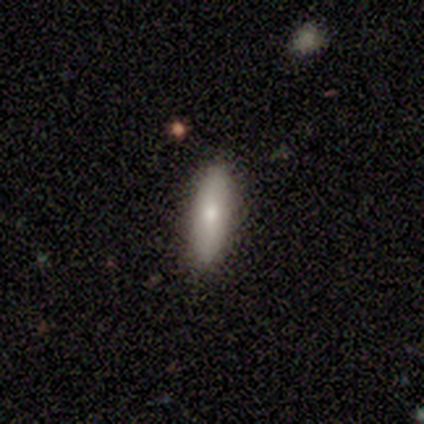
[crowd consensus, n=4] smooth_or_featured: smooth (p=0.75) [alt: featured or disk p=0.25]
how_rounded: cigar-shaped (p=0.67) [alt: in between p=0.33]
merging: none (p=1.00)